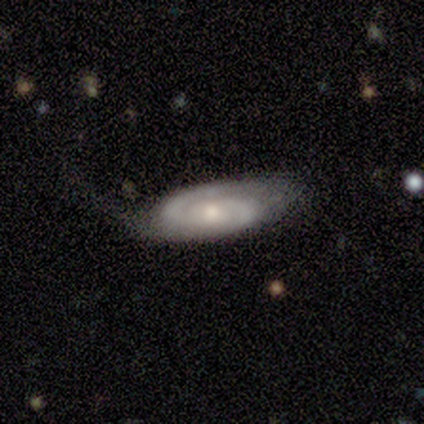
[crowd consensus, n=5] Smooth or featured: featured or disk — 60% (smooth — 40%)
Edge-on disk: no — 100%
Bar: no — 100%
Spiral arms: yes — 100%
Spiral winding: tight — 100%
Spiral arm count: 2 — 100%
Bulge size: moderate — 67% (small — 33%)
Merging: none — 40% (tied with minor disturbance — 40%)